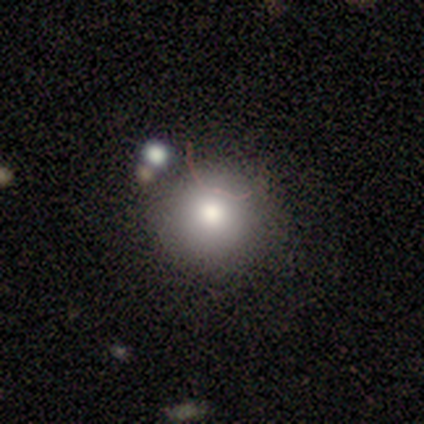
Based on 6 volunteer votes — Smooth or featured: smooth — 83% (star or artifact — 17%)
How rounded: round — 80% (in between — 20%)
Merging: none — 100%